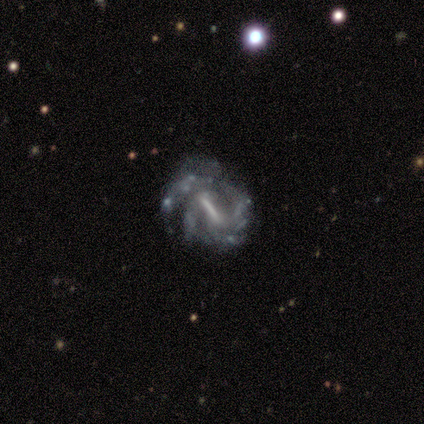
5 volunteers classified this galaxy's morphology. A featured or disk galaxy (100%) with a strong bar (80%), 2 (50%, tied with 3) medium (50%) spiral arms (80%) and a moderate central bulge (60%). Merging: minor disturbance (60%).